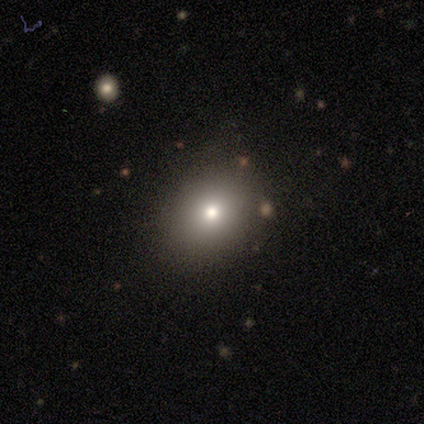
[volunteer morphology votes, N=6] Smooth or featured: smooth — 83% (featured or disk — 17%)
How rounded: round — 100%
Merging: none — 100%